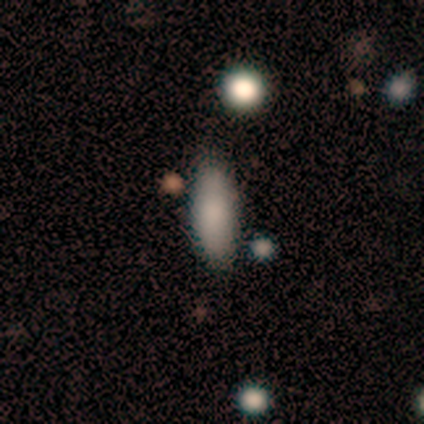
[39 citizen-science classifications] smooth 82%, featured or disk 10%, star or artifact 8%. Down the decision tree: how rounded — in between (66%); merging — none (72%).